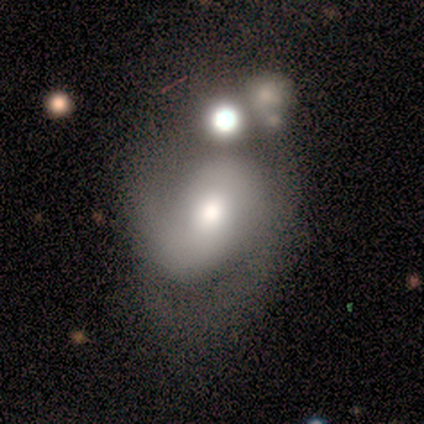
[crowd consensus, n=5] A featured or disk galaxy (60%) with no bar (67%), 2 (67%) tight (67%) spiral arms (100%) and a moderate central bulge (67%). Merging: none (40%, tied with merger).